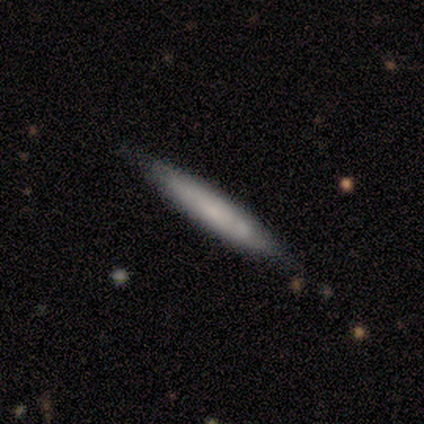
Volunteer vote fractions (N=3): Morphology: type=featured or disk (67%); edge-on=yes (100%); edge-on bulge=none (100%); merging=none (100%).